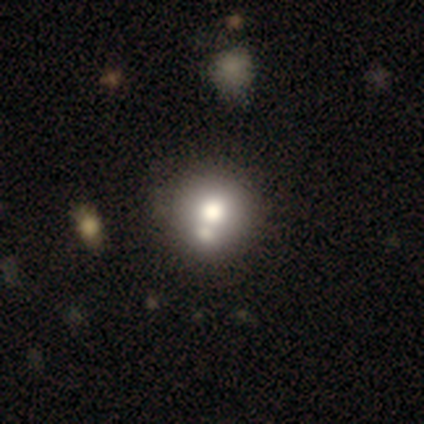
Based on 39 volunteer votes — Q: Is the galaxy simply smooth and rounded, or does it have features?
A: smooth — 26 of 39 (67%).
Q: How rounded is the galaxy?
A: round — 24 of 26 (92%).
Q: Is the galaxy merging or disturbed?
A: merger — 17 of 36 (47%).